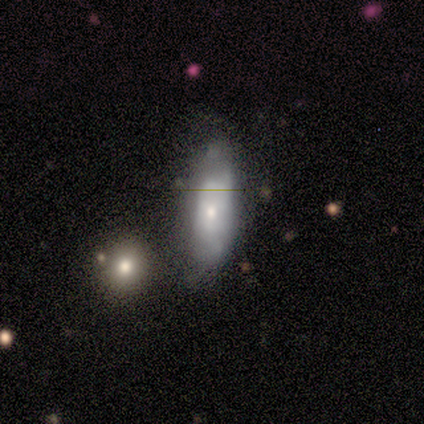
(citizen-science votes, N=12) This appears to be a smooth galaxy with no disk features (67%) that is in between round and cigar-shaped (75%). Merging: minor disturbance (42%).